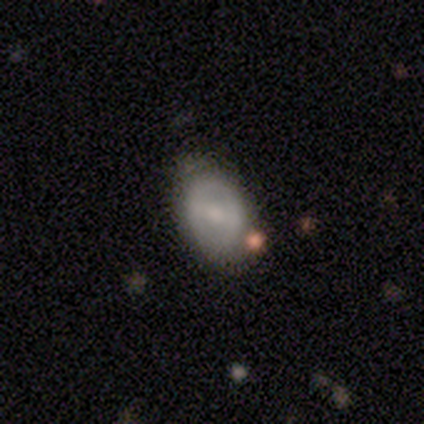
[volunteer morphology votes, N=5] Overall: featured or disk (80%). Edge-on disk: no (100%). Bar: strong (50%, tied with no). Spiral arms: no (75%). Bulge size: small (50%; moderate 25%). Merging: none (100%).